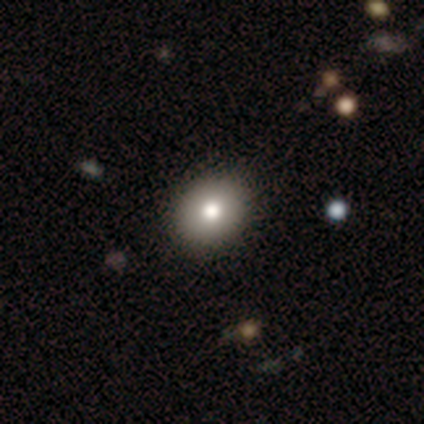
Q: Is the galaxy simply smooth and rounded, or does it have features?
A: smooth — 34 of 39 (87%).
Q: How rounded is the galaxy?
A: round — 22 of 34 (65%).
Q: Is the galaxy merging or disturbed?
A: none — 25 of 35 (71%).